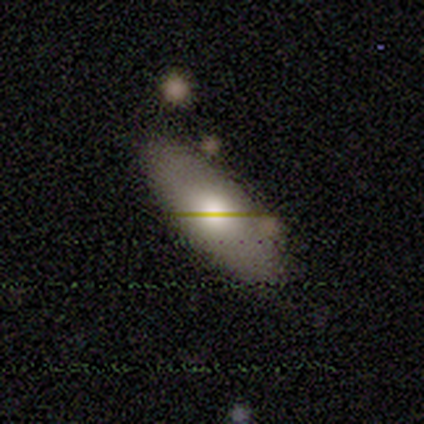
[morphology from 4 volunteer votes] smooth 100%, featured or disk 0%, star or artifact 0%. Down the decision tree: how rounded — in between (75%); merging — none (50%).